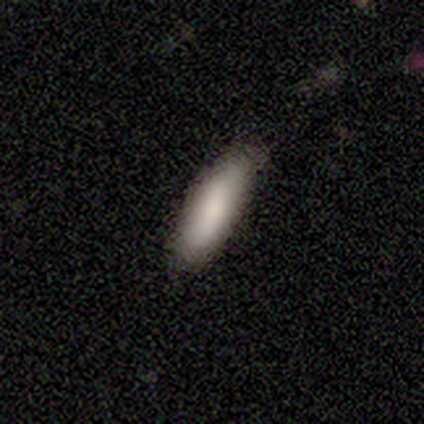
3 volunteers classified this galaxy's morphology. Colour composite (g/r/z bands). It shows a smooth galaxy with no disk features (100%) that is cigar-shaped (67%). Merging: none (100%).